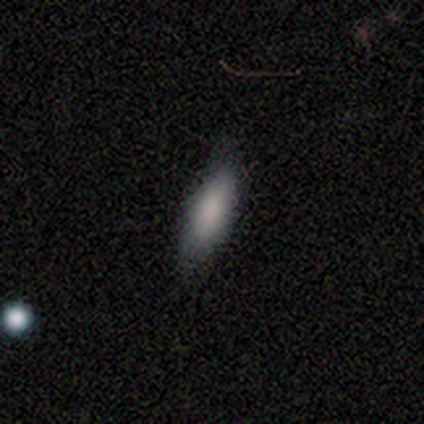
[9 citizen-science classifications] Morphology: type=smooth (89%); roundness=in between (75%); merging=none (100%).